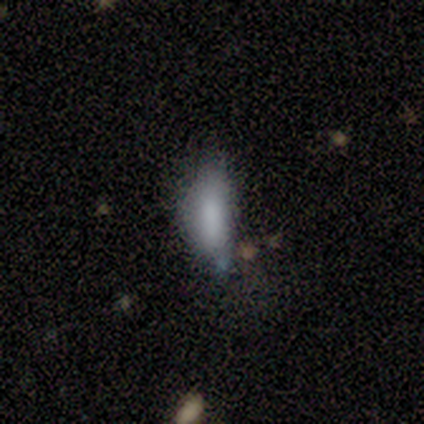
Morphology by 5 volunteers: A smooth galaxy with no disk features (80%) that is in between round and cigar-shaped (75%). Merging: minor disturbance (80%).